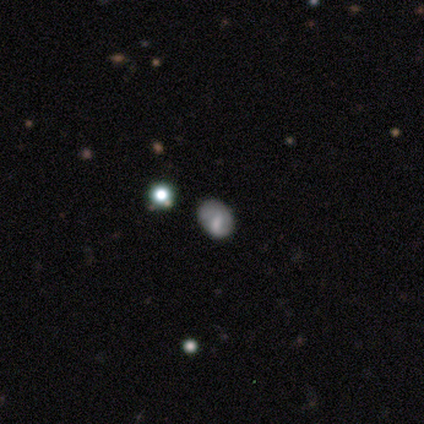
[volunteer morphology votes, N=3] A smooth galaxy with no disk features (67%) that is round (50%, tied with in between).

Vote fractions:
- Smooth or featured? smooth: 67% / star or artifact: 33% / featured or disk: 0%
- How rounded? round: 50% (tied) / in between: 50% (tied) / cigar-shaped: 0%
- Merging? none: 100% / minor disturbance: 0% / major disturbance: 0% / merger: 0%